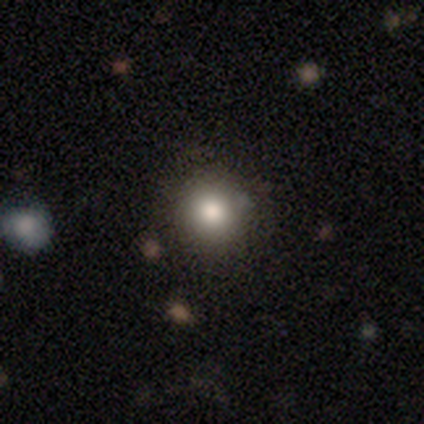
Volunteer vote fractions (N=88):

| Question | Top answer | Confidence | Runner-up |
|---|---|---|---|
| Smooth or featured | smooth | 83% | star or artifact (12%) |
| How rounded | round | 95% | in between (5%) |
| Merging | none | 90% | minor disturbance (6%) |